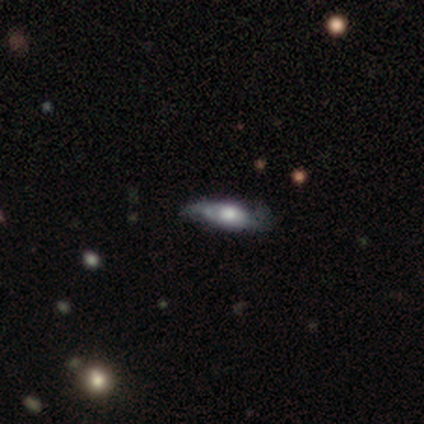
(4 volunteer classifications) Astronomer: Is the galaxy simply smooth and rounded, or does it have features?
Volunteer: featured or disk — 75%.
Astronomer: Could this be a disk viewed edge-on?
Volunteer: yes — 67%.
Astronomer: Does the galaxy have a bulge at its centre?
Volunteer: rounded — 100%.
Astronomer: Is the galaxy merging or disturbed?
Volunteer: none — 50%, tied with minor disturbance at 50%.